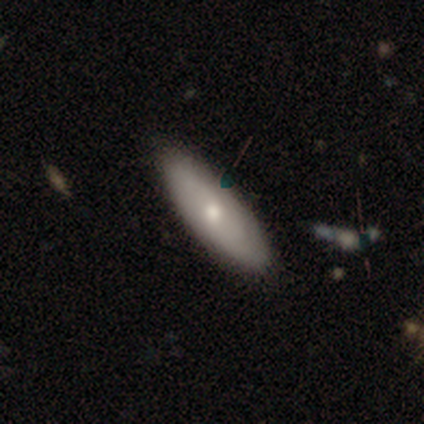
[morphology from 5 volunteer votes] This is likely a smooth galaxy (60%). How rounded: clearly in between (100%). Merging: clearly none (80%).